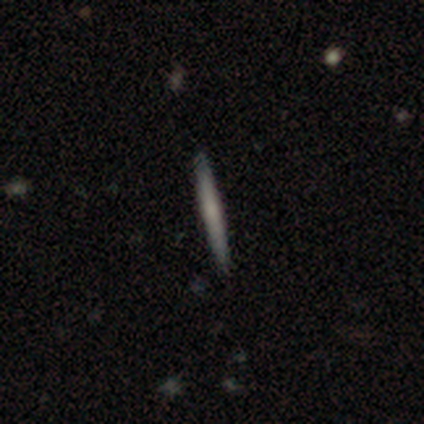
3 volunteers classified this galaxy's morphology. smooth 67%, featured or disk 33%, star or artifact 0%. Down the decision tree: how rounded — cigar-shaped (100%); merging — none (67%).